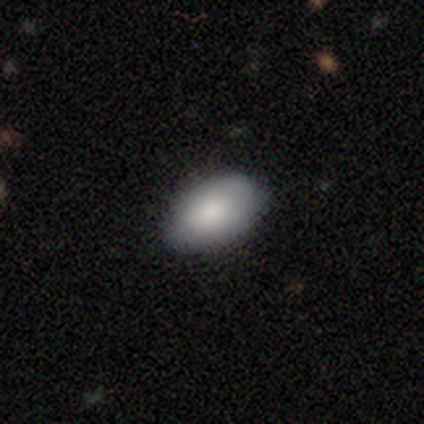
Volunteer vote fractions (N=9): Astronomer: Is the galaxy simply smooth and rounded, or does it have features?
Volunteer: smooth — 89%.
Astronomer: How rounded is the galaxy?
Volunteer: in between — 88%.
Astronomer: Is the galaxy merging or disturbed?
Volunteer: none — 89%.